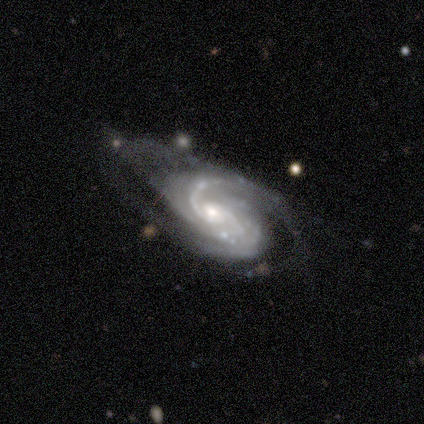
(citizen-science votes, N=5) featured or disk 100%, smooth 0%, star or artifact 0%. Down the decision tree: edge-on disk — no (60%); bar — no (67%); spiral arms — yes (100%); spiral arm count — 2 (67%); spiral winding — tight (67%); bulge size — moderate (67%); merging — major disturbance (80%).